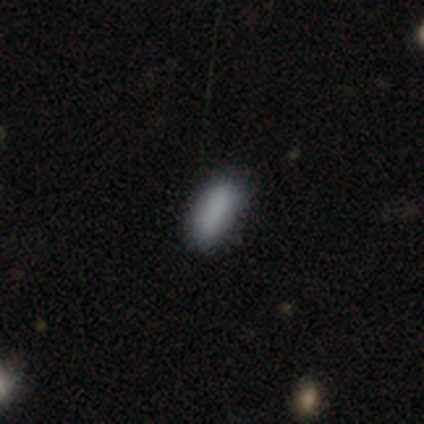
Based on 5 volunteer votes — A smooth galaxy with no disk features (100%) that is in between round and cigar-shaped (100%). Merging: minor disturbance (60%).